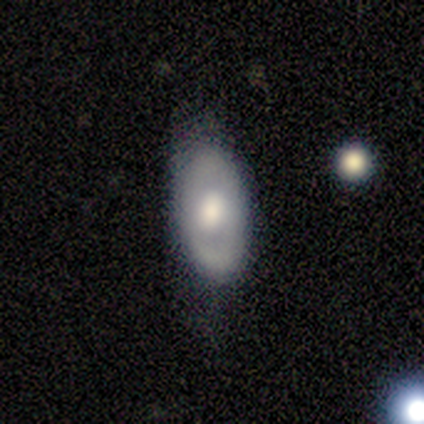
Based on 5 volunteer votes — Smooth or featured? featured or disk (60%)
Edge-on disk? no (67%)
Bar? weak (50%, tied with no)
Spiral arms? no (100%)
Bulge size? large (50%, tied with moderate)
Merging? none (100%)